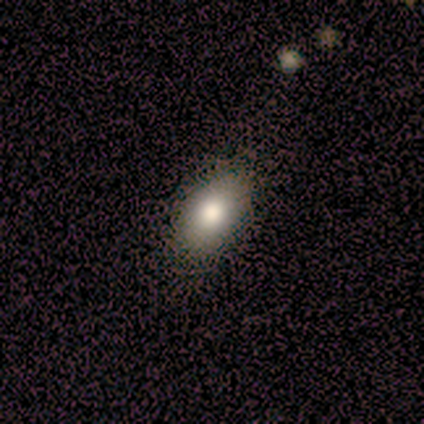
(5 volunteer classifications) This is clearly a smooth galaxy (80%). How rounded: clearly in between (100%). Merging: clearly none (80%).